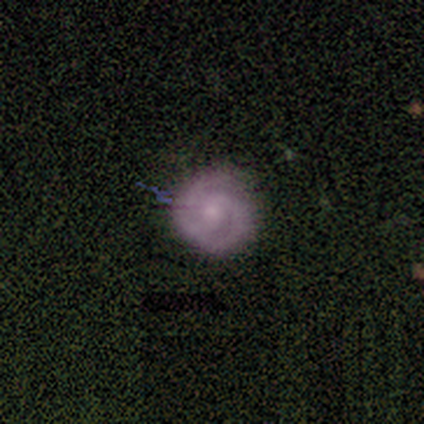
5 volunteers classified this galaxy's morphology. smooth_or_featured: featured or disk (p=0.80) [alt: smooth p=0.20]
disk_edge_on: no (p=1.00)
bar: no (p=0.50) [alt: strong p=0.25]
has_spiral_arms: yes (p=1.00)
spiral_winding: tight (p=0.75) [alt: medium p=0.25]
spiral_arm_count: 2 (p=1.00)
bulge_size: small (p=1.00)
merging: minor disturbance (p=0.60) [alt: none p=0.40]